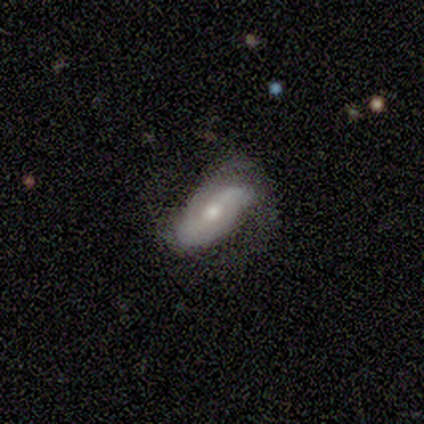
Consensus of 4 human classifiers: Morphology: type=smooth (50%, tied with featured or disk); roundness=in between (100%); merging=none (100%).